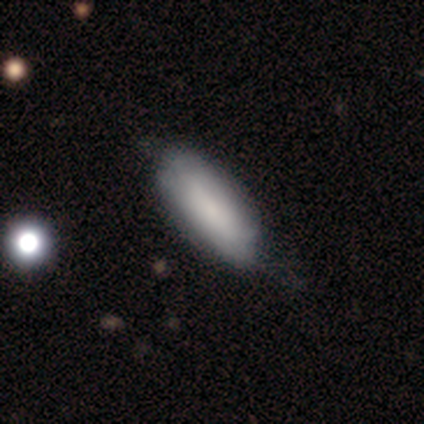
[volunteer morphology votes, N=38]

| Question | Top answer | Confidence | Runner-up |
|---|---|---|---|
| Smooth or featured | smooth | 76% | featured or disk (18%) |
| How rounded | in between | 72% | cigar-shaped (28%) |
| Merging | none | 44% | minor disturbance (17%) |